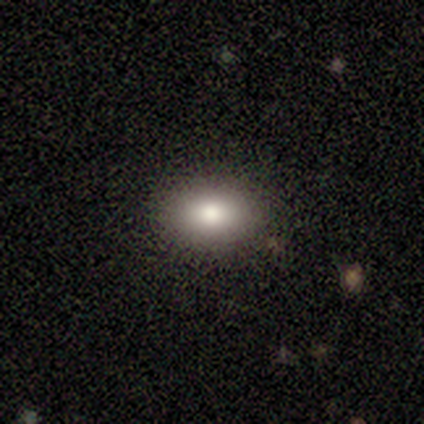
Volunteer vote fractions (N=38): This is clearly a smooth galaxy (84%). How rounded: likely in between (75%). Merging: clearly none (91%).